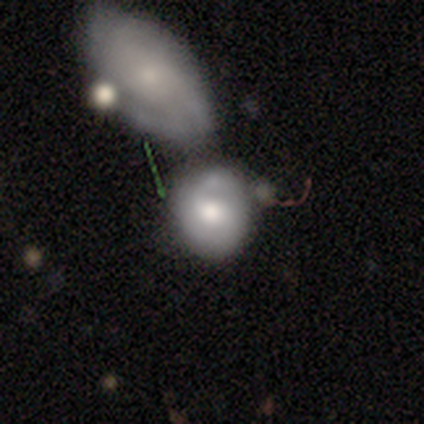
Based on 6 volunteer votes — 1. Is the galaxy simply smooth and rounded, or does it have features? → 67% smooth, 33% featured or disk, 0% star or artifact.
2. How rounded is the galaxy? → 100% round, 0% in between, 0% cigar-shaped.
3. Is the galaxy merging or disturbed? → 67% none, 33% merger, 0% minor disturbance, 0% major disturbance.